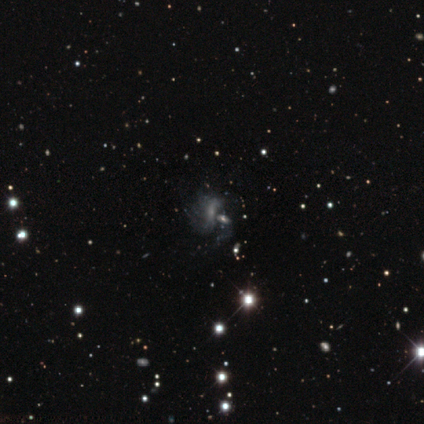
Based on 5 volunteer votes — Smooth or featured: featured or disk — 60% (smooth — 20%)
Edge-on disk: no — 100%
Bar: no — 67% (weak — 33%)
Spiral arms: yes — 67% (no — 33%)
Spiral winding: medium — 50% (tied with loose — 50%)
Spiral arm count: 2 — 100%
Bulge size: small — 100%
Merging: none — 50% (minor disturbance — 25%)